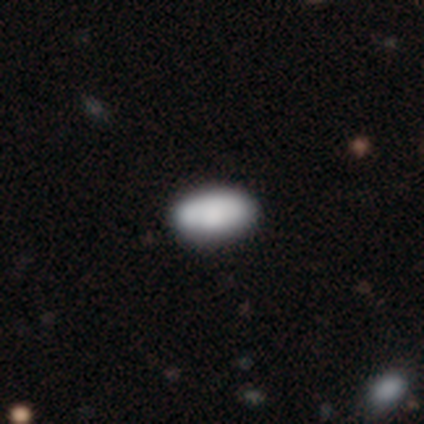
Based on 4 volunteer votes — Smooth or featured? smooth (100%)
How rounded? in between (100%)
Merging? none (100%)